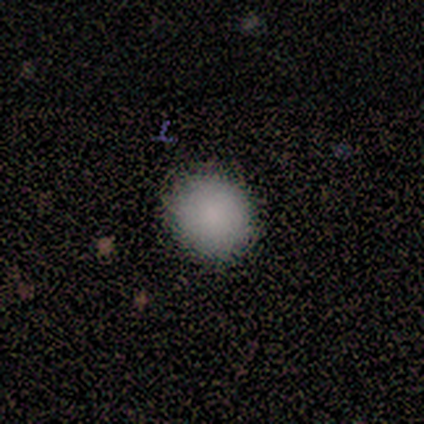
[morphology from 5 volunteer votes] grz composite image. It shows a smooth galaxy with no disk features (100%) that is round (100%). Merging: none (100%).